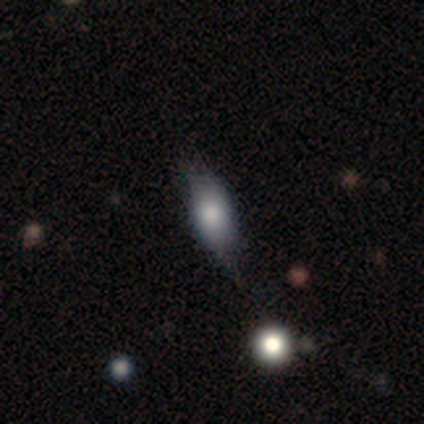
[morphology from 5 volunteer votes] Overall: featured or disk (60%; smooth 40%). Edge-on disk: no (67%; yes 33%). Bar: no (100%). Spiral arms: no (100%). Bulge size: large (50%, tied with small). Merging: minor disturbance (60%; none 40%).